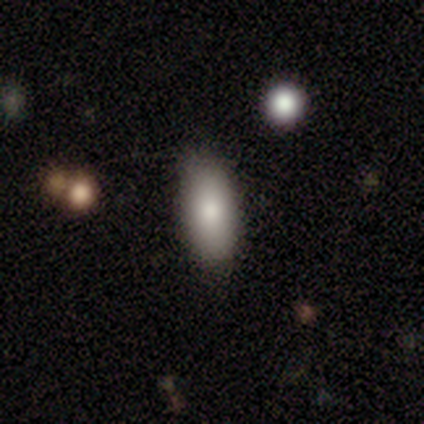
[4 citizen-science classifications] smooth_or_featured: smooth (p=0.75) [alt: star or artifact p=0.25]
how_rounded: in between (p=1.00)
merging: none (p=1.00)